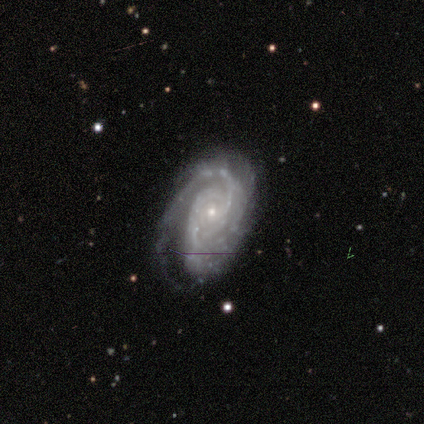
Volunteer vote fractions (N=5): Smooth or featured?
  - featured or disk: 100% *
  - smooth: 0%
  - star or artifact: 0%
Edge-on disk?
  - no: 100% *
  - yes: 0%
Bar?
  - no: 60% *
  - weak: 40%
  - strong: 0%
Spiral arms?
  - yes: 100% *
  - no: 0%
Spiral winding?
  - tight: 60% *
  - medium: 20%
  - loose: 20%
Spiral arm count?
  - 2: 60% *
  - 1: 20%
  - can't tell: 20%
  - 3: 0%
  - 4: 0%
  - more than 4: 0%
Bulge size?
  - small: 100% *
  - dominant: 0%
  - large: 0%
  - moderate: 0%
  - none: 0%
Merging?
  - none: 60% *
  - minor disturbance: 40%
  - major disturbance: 0%
  - merger: 0%